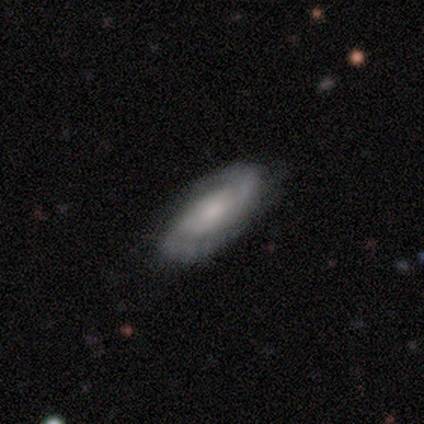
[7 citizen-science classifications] Overall: featured or disk (86%). Edge-on disk: no (83%). Bar: no (80%). Spiral arms: yes (100%). Spiral arm count: 2 (60%; can't tell 40%). Spiral winding: tight (40%, tied with medium). Bulge size: small (80%). Merging: none (86%).